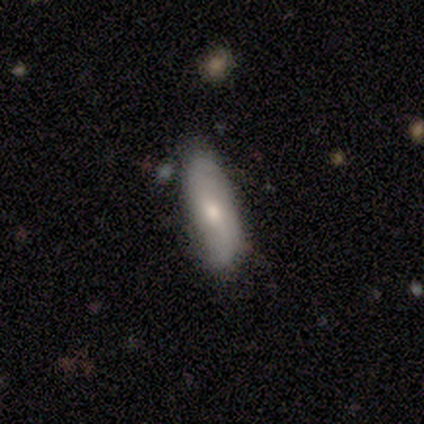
Smooth or featured: smooth — 80% (featured or disk — 20%)
How rounded: in between — 50% (tied with cigar-shaped — 50%)
Merging: none — 60% (minor disturbance — 20%)